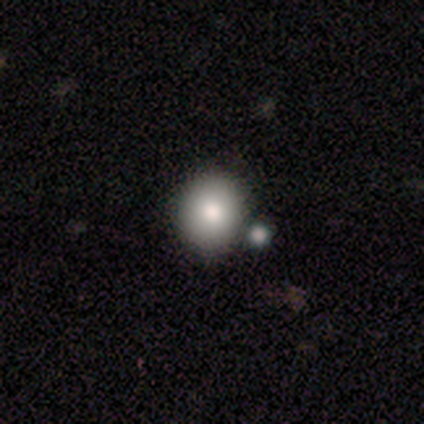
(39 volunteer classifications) Volunteers were most divided on "merging": none: 46%, merger: 33%, minor disturbance: 5%, major disturbance: 0%. More confident: smooth or featured — smooth (95%); how rounded — round (81%).